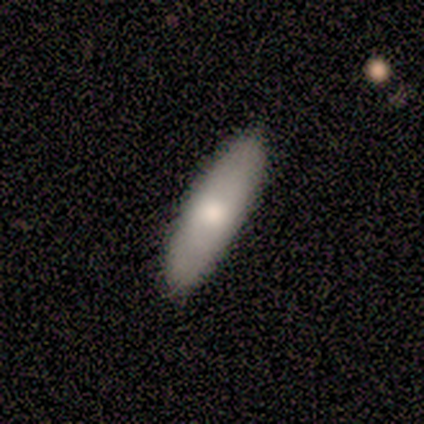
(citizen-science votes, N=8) Smooth or featured: smooth — 50% (featured or disk — 38%)
How rounded: cigar-shaped — 75% (in between — 25%)
Merging: none — 100%